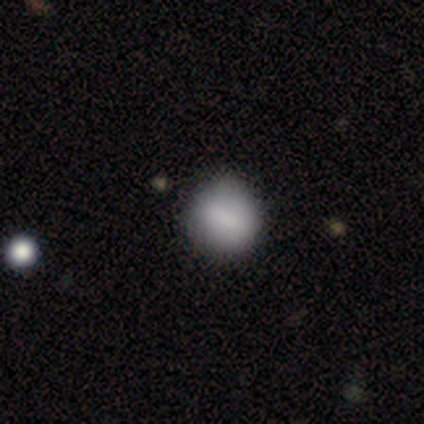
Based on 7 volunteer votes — Smooth or featured?
  - smooth: 100% *
  - featured or disk: 0%
  - star or artifact: 0%
How rounded?
  - round: 86% *
  - in between: 14%
  - cigar-shaped: 0%
Merging?
  - none: 57% *
  - minor disturbance: 29%
  - major disturbance: 14%
  - merger: 0%